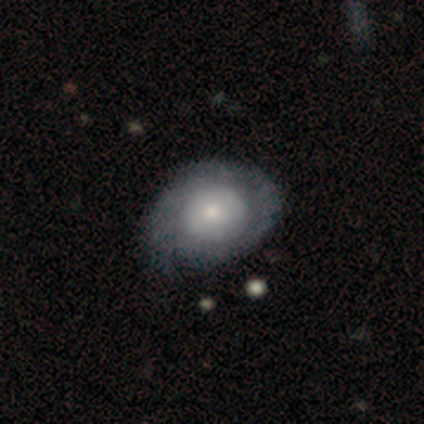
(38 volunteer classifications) A featured or disk galaxy (58%) with no bar (82%), 2 (42%) tight (67%) spiral arms (55%) and a moderate central bulge (41%).

Vote fractions:
- Smooth or featured? featured or disk: 58% / smooth: 39% / star or artifact: 3%
- Edge-on disk? no: 100% / yes: 0%
- Bar? no: 82% / weak: 14% / strong: 5%
- Spiral arms? yes: 55% / no: 45%
- Spiral winding? tight: 67% / medium: 25% / loose: 8%
- Spiral arm count? 2: 42% / can't tell: 33% / 3: 17% / 1: 8% / 4: 0% / more than 4: 0%
- Bulge size? moderate: 41% / small: 32% / large: 23% / dominant: 5% / none: 0%
- Merging? none: 38% / minor disturbance: 24% / major disturbance: 5% / merger: 3%